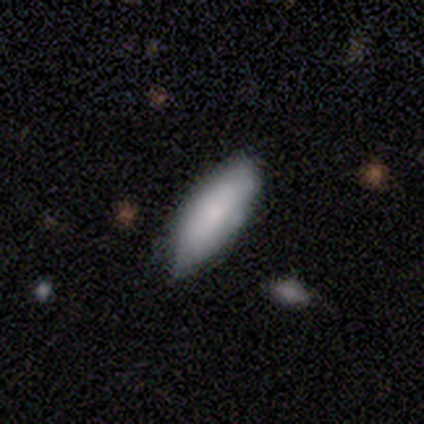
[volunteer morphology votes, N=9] This appears to be a featured or disk galaxy (56%) viewed edge-on (60%) with no central bulge (67%). Merging: none (78%).